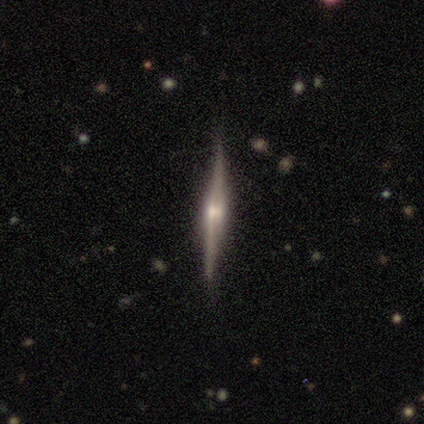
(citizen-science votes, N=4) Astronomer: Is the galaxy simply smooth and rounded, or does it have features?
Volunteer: featured or disk — 100%.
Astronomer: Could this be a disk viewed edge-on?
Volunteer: yes — 75%.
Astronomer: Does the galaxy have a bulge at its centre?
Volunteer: rounded — 67%.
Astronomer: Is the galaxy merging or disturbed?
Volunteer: none — 75%.